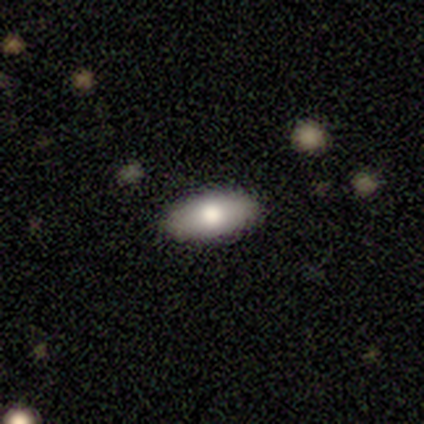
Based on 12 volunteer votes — smooth-or-featured: smooth: 100% | featured or disk: 0% | star or artifact: 0%
  how-rounded: in between: 100% | round: 0% | cigar-shaped: 0%
  merging: none: 100% | minor disturbance: 0% | major disturbance: 0% | merger: 0%